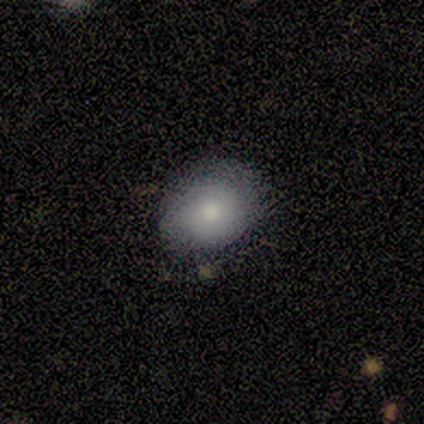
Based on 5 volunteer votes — A smooth galaxy with no disk features (100%) that is in between round and cigar-shaped (80%).

Vote fractions:
- Smooth or featured? smooth: 100% / featured or disk: 0% / star or artifact: 0%
- How rounded? in between: 80% / round: 20% / cigar-shaped: 0%
- Merging? none: 80% / minor disturbance: 20% / major disturbance: 0% / merger: 0%